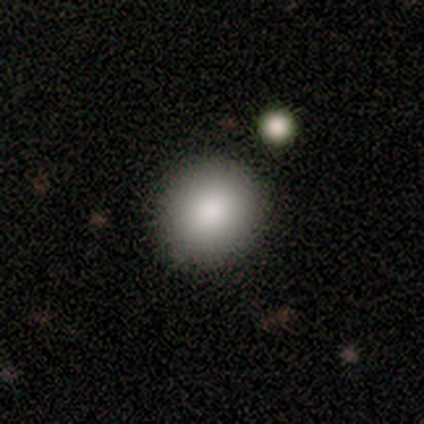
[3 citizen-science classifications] smooth_or_featured: smooth (p=0.67) [alt: star or artifact p=0.33]
how_rounded: round (p=0.50) [tied with: in between p=0.50]
merging: none (p=1.00)